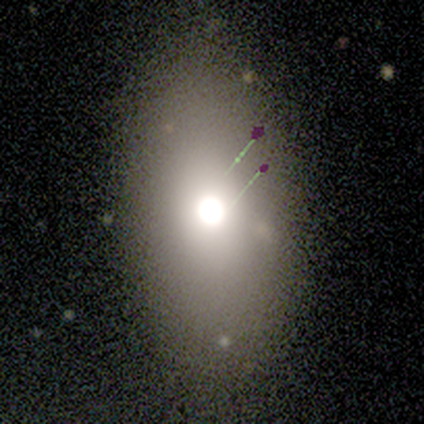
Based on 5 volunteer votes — This is marginally a smooth galaxy (40%, tied with featured or disk). How rounded: possibly in between (50%, tied with cigar-shaped). Merging: likely none (75%).